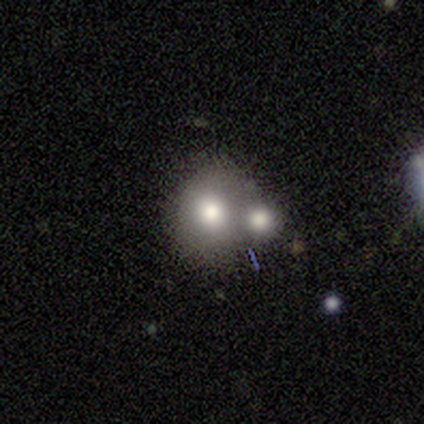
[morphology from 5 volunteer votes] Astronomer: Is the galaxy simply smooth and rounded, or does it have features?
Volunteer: smooth — 80%.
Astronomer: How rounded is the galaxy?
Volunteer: round — 50%, tied with in between at 50%.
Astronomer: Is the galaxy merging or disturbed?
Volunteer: merger — 60% (runner-up: none, 40%).